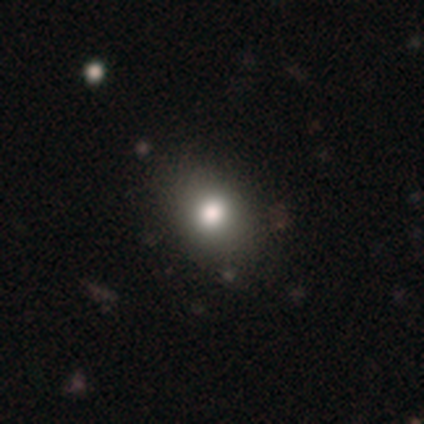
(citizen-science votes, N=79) Volunteers were most divided on "how rounded": in between: 66%, round: 34%, cigar-shaped: 0%. Remaining: smooth or featured — smooth (77%); merging — none (44%).